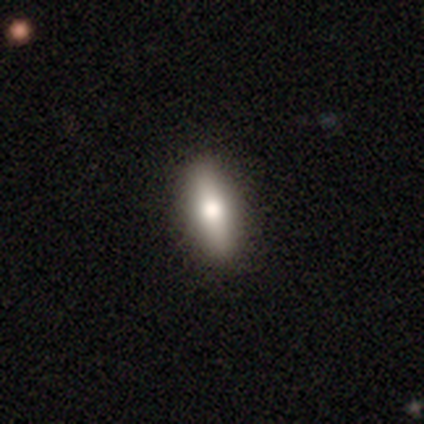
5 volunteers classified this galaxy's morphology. This appears to be a smooth galaxy with no disk features (80%) that is in between round and cigar-shaped (100%). Merging: none (100%).